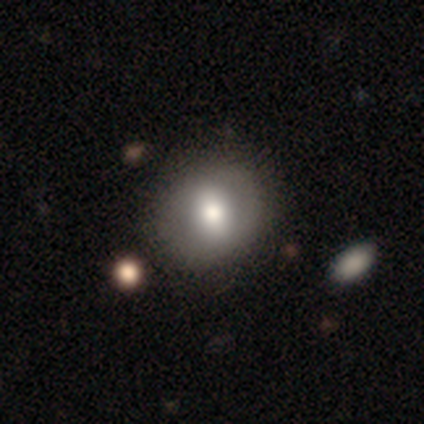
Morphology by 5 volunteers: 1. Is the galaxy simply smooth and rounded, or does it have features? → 80% featured or disk, 20% star or artifact, 0% smooth.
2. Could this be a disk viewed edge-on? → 100% no, 0% yes.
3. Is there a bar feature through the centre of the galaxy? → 50% weak, 25% strong, 25% no.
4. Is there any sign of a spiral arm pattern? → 75% no, 25% yes.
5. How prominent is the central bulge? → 50% large (tied), 50% moderate (tied), 0% dominant, 0% small, 0% none.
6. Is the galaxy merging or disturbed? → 75% none, 25% merger, 0% minor disturbance, 0% major disturbance.